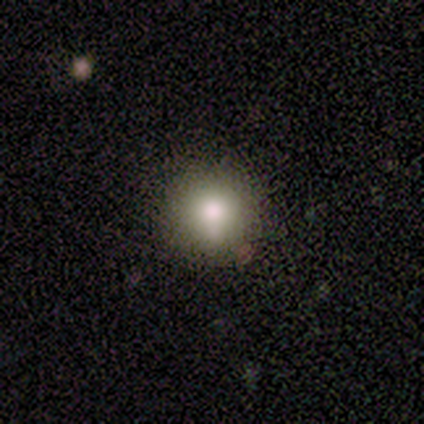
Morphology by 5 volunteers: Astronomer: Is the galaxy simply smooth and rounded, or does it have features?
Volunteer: smooth — 60% (runner-up: star or artifact, 40%).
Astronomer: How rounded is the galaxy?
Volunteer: round — 100%.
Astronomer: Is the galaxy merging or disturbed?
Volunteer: none — 100%.